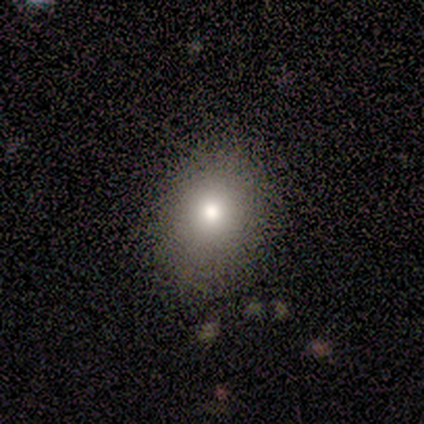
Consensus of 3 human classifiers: smooth-or-featured: smooth: 100% | featured or disk: 0% | star or artifact: 0%
  how-rounded: round: 100% | in between: 0% | cigar-shaped: 0%
  merging: none: 67% | minor disturbance: 33% | major disturbance: 0% | merger: 0%